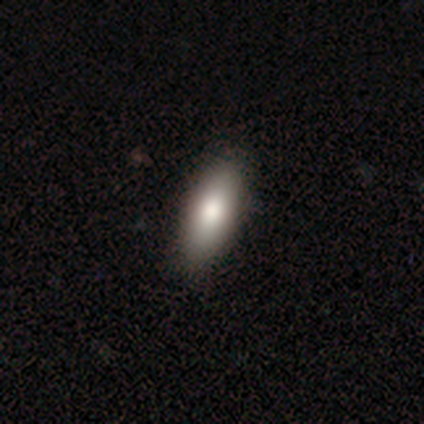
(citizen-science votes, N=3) smooth-or-featured: featured or disk: 67% | smooth: 33% | star or artifact: 0%
  disk-edge-on: yes: 50% (tied) | no: 50% (tied)
    edge-on-bulge: rounded: 100% | boxy: 0% | none: 0%
  merging: none: 100% | minor disturbance: 0% | major disturbance: 0% | merger: 0%